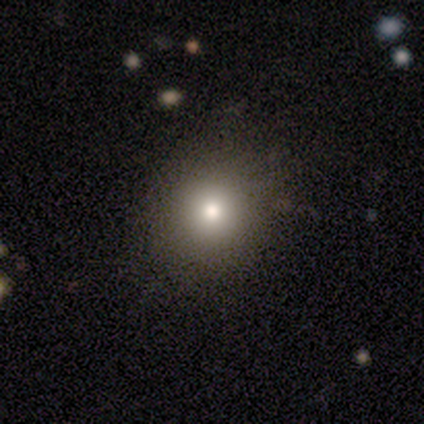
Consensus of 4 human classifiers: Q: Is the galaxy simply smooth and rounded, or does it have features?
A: smooth — 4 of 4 (100%).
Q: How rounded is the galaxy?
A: round — 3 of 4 (75%).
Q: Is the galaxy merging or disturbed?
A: none — 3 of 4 (75%).